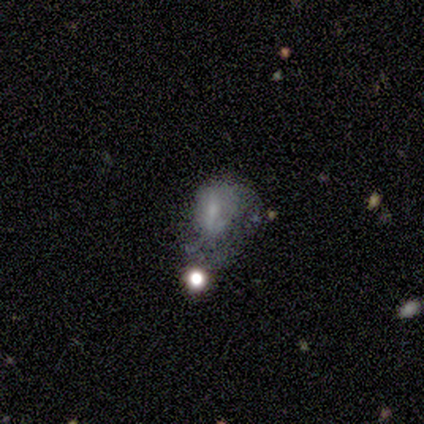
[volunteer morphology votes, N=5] type=smooth (60%); roundness=in between (67%); merging=none (50%).